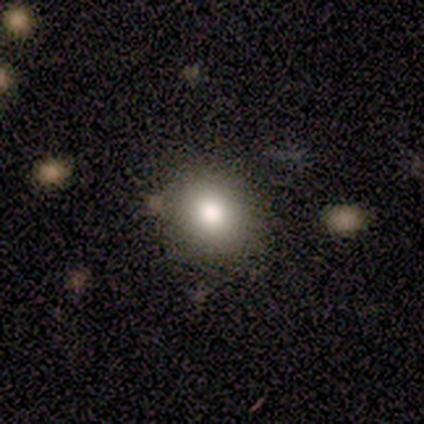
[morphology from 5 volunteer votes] This is clearly a smooth galaxy (80%). How rounded: likely round (75%). Merging: clearly none (100%).